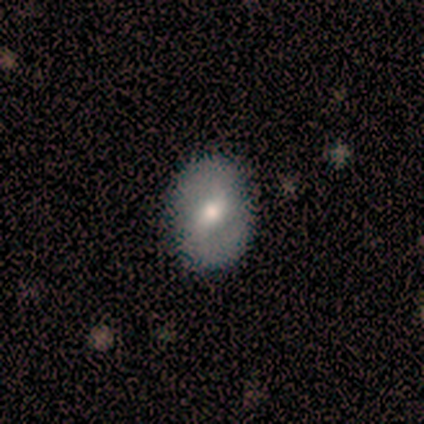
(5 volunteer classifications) featured or disk 60%, smooth 40%, star or artifact 0%. Down the decision tree: edge-on disk — no (100%); bar — weak (100%); spiral arms — yes (100%); spiral arm count — 2 (100%); spiral winding — medium (67%); bulge size — moderate (67%); merging — none (100%).